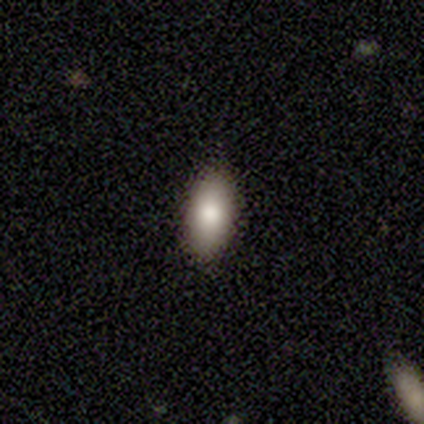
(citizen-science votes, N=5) Smooth or featured?
  - smooth: 100% *
  - featured or disk: 0%
  - star or artifact: 0%
How rounded?
  - in between: 100% *
  - round: 0%
  - cigar-shaped: 0%
Merging?
  - none: 100% *
  - minor disturbance: 0%
  - major disturbance: 0%
  - merger: 0%